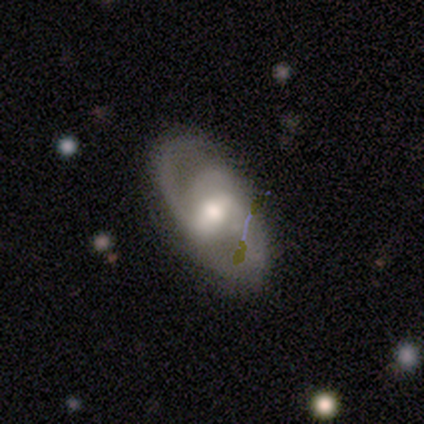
This is clearly a featured or disk galaxy (90%). It is clearly not viewed edge-on (94%). Bar: possibly strong (55%). Spiral arm pattern: clearly yes (91%). Spiral arm count: possibly 2 (47%). Spiral winding: possibly medium (53%). Central bulge: likely moderate (73%). Merging: marginally none (38%).